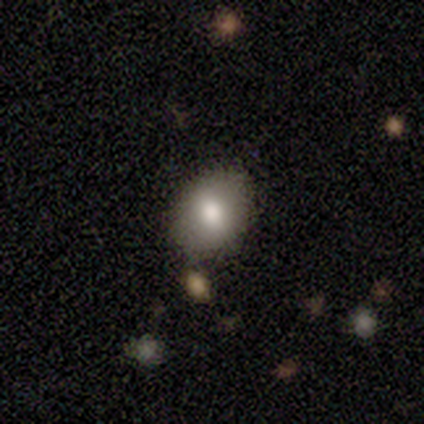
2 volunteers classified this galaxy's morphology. Smooth or featured?
  - smooth: 100% *
  - featured or disk: 0%
  - star or artifact: 0%
How rounded?
  - in between: 100% *
  - round: 0%
  - cigar-shaped: 0%
Merging?
  - none: 100% *
  - minor disturbance: 0%
  - major disturbance: 0%
  - merger: 0%